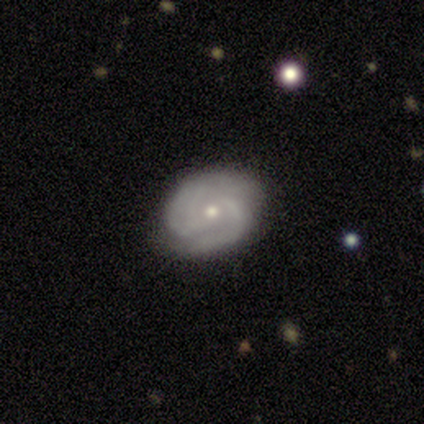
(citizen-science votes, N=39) Smooth or featured: featured or disk — 92% (star or artifact — 5%)
Edge-on disk: no — 97% (yes — 3%)
Bar: no — 60% (weak — 26%)
Spiral arms: yes — 97% (no — 3%)
Spiral winding: tight — 71% (medium — 18%)
Spiral arm count: 2 — 62% (can't tell — 21%)
Bulge size: small — 63% (moderate — 37%)
Merging: none — 76% (minor disturbance — 22%)